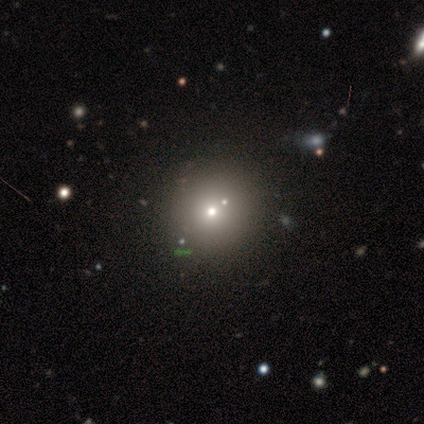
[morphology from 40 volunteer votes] Smooth or featured? 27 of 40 (68%) said smooth. How rounded? 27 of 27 (100%) said round. Merging? 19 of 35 (54%) said none.